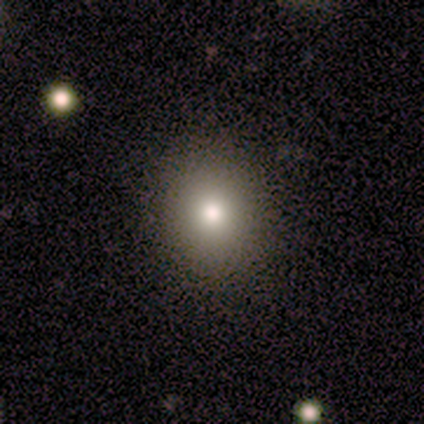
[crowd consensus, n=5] Smooth or featured? 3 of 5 (60%) said smooth. How rounded? 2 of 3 (67%) said round. Merging? 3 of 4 (75%) said none.